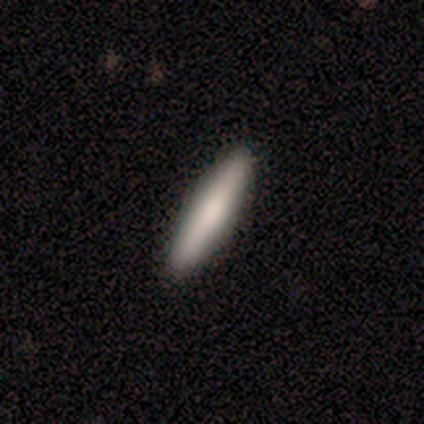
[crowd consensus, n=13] Overall: smooth (92%). How rounded: cigar-shaped (92%). Merging: none (85%).